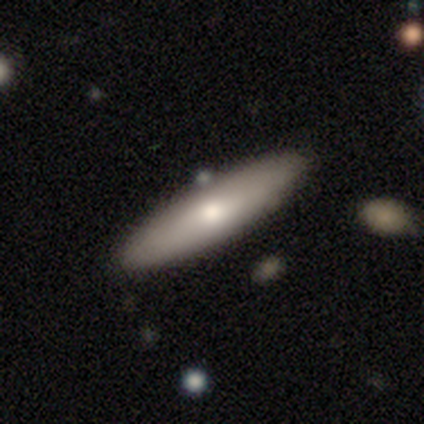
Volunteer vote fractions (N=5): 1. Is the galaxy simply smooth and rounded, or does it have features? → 100% smooth, 0% featured or disk, 0% star or artifact.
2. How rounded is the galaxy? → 80% cigar-shaped, 20% in between, 0% round.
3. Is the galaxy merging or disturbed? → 100% none, 0% minor disturbance, 0% major disturbance, 0% merger.